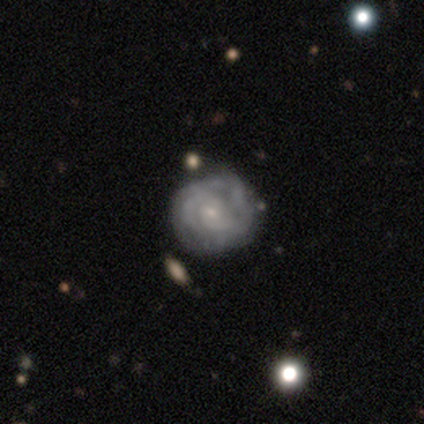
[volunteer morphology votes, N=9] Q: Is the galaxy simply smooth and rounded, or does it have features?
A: featured or disk — 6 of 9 (67%).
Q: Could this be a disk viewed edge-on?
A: no — 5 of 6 (83%).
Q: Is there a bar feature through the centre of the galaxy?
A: no — 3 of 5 (60%).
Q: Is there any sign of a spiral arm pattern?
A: yes — 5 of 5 (100%).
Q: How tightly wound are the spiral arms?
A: tight — 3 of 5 (60%).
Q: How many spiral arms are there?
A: can't tell — 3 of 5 (60%).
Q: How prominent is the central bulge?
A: small — 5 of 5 (100%).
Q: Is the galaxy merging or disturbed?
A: none — 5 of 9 (56%).